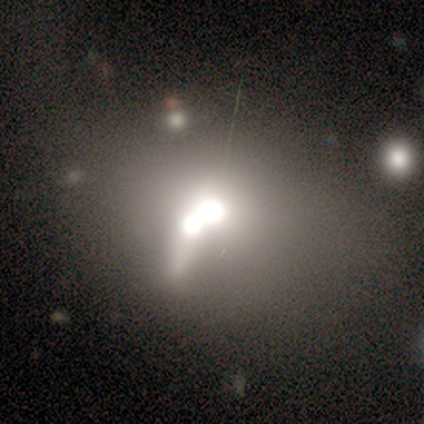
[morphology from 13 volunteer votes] smooth_or_featured: smooth (p=0.69) [alt: featured or disk p=0.15]
how_rounded: in between (p=0.67) [alt: round p=0.22]
merging: merger (p=0.91) [alt: none p=0.09]